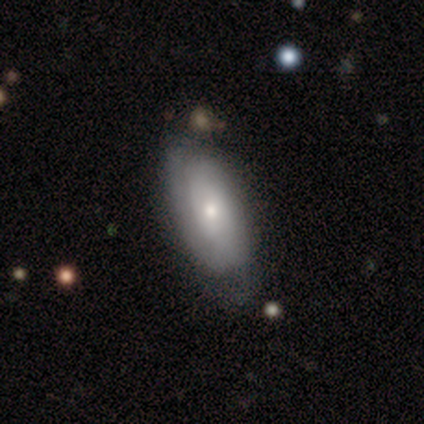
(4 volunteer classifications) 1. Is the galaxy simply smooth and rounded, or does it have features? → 75% featured or disk, 25% smooth, 0% star or artifact.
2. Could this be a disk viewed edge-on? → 100% no, 0% yes.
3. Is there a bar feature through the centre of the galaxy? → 100% no, 0% strong, 0% weak.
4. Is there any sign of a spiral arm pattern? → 100% yes, 0% no.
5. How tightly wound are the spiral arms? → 67% loose, 33% tight, 0% medium.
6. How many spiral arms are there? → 67% can't tell, 33% 1, 0% 2, 0% 3, 0% 4, 0% more than 4.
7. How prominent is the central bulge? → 33% moderate (tied), 33% small (tied), 33% none (tied), 0% dominant, 0% large.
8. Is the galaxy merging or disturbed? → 100% none, 0% minor disturbance, 0% major disturbance, 0% merger.